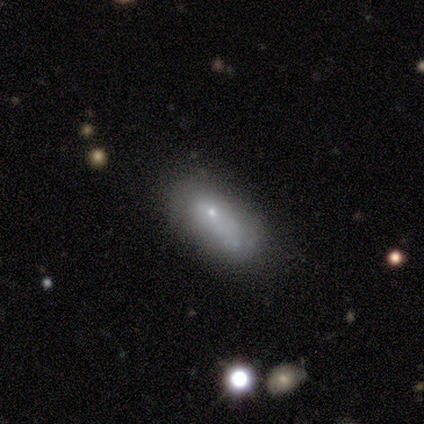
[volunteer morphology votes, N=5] This is marginally a smooth galaxy (40%, tied with featured or disk). How rounded: clearly in between (100%). Merging: possibly minor disturbance (50%, tied with major disturbance).